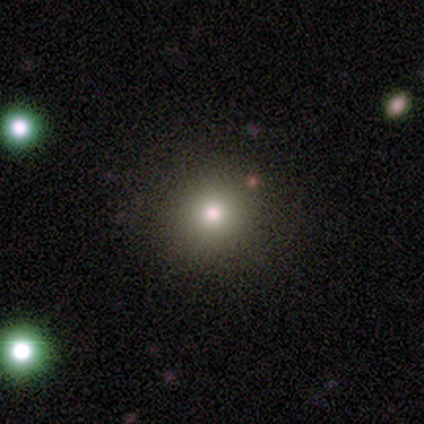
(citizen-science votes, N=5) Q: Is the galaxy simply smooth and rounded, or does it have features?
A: smooth — 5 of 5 (100%).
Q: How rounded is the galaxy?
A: round — 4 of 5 (80%).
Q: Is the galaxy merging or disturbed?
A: none — 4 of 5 (80%).